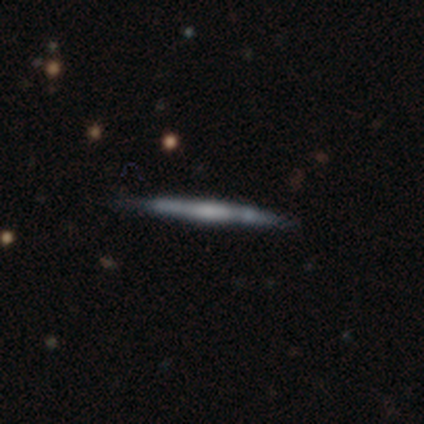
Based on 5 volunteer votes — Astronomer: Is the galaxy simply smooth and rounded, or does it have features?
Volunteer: smooth — 40%, tied with featured or disk at 40%.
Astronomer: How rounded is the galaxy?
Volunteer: cigar-shaped — 100%.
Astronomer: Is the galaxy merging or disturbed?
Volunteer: none — 75%.